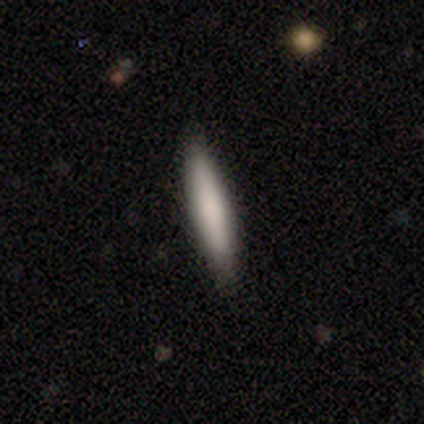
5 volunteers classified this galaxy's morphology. A smooth galaxy with no disk features (80%) that is cigar-shaped (100%). Merging: none (100%).